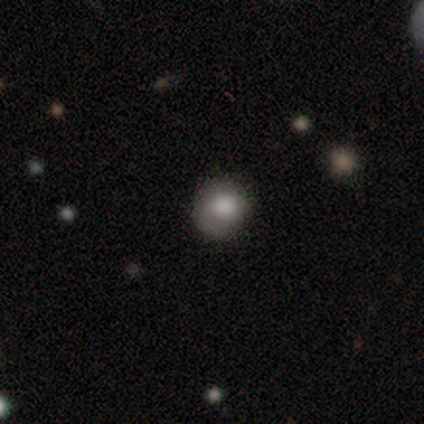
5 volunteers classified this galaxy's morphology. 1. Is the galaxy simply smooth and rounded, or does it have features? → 80% smooth, 20% star or artifact, 0% featured or disk.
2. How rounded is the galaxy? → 100% round, 0% in between, 0% cigar-shaped.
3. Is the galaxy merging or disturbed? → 50% none (tied), 50% minor disturbance (tied), 0% major disturbance, 0% merger.